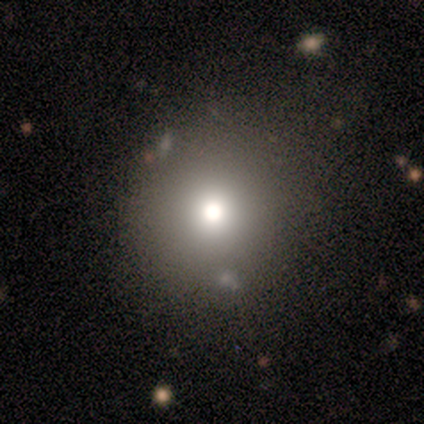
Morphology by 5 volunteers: This is likely a featured or disk galaxy (60%). It is clearly not viewed edge-on (100%). Bar: clearly no (100%). Spiral arm pattern: likely no (67%). Central bulge: marginally dominant (33%, tied with large and none). Merging: clearly none (80%).